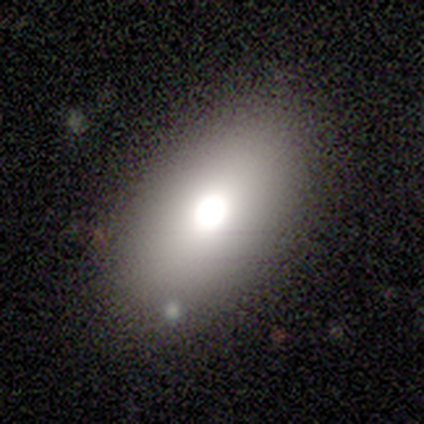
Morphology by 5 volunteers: smooth_or_featured: smooth (p=0.60) [alt: featured or disk p=0.20]
how_rounded: in between (p=1.00)
merging: none (p=0.75) [alt: merger p=0.25]